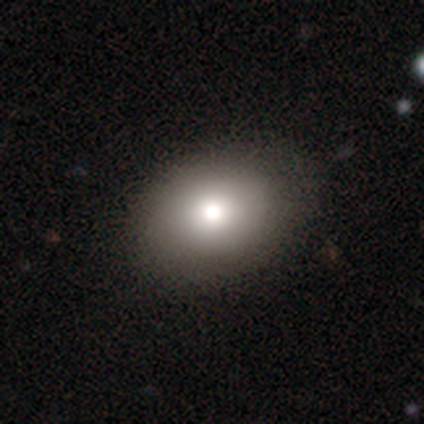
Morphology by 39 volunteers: This appears to be a smooth galaxy with no disk features (79%) that is in between round and cigar-shaped (71%). Merging: none (91%).